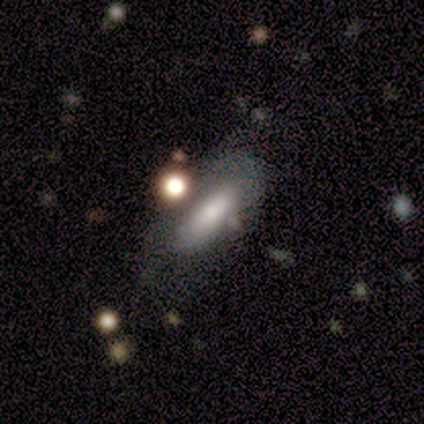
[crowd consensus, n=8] Smooth or featured? smooth (62%)
How rounded? in between (80%)
Merging? none (38%, tied with minor disturbance)